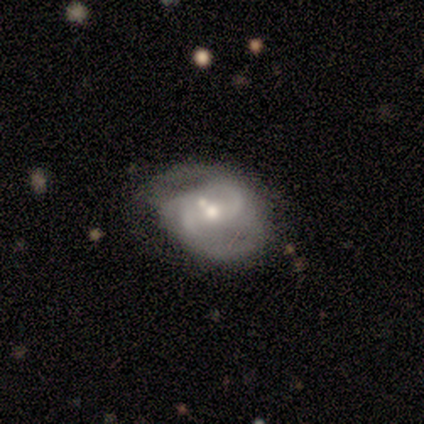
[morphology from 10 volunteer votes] Volunteers were most divided on "spiral winding" (2-way tie): medium: 44%, loose: 44%, tight: 11%. Remaining: edge-on disk — no (100%); spiral arms — yes (100%); spiral arm count — 2 (100%); smooth or featured — featured or disk (90%); bulge size — moderate (78%); bar — weak (56%); merging — major disturbance (40%).